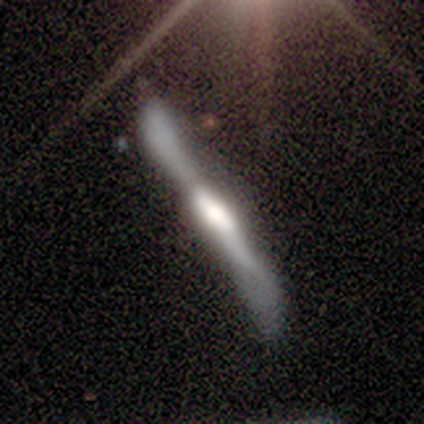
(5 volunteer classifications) This is clearly a featured or disk galaxy (80%). It is possibly viewed edge-on (50%, tied with no). Edge-on bulge: possibly boxy (50%, tied with none). Merging: marginally none (40%, tied with minor disturbance).